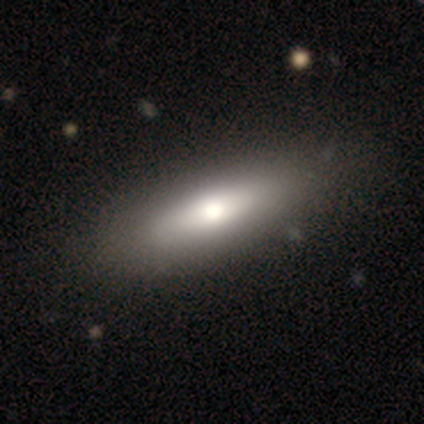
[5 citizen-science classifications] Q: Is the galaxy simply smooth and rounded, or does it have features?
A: smooth — 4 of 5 (80%).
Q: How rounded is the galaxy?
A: in between — 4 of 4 (100%).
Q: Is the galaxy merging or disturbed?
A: none — 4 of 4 (100%).